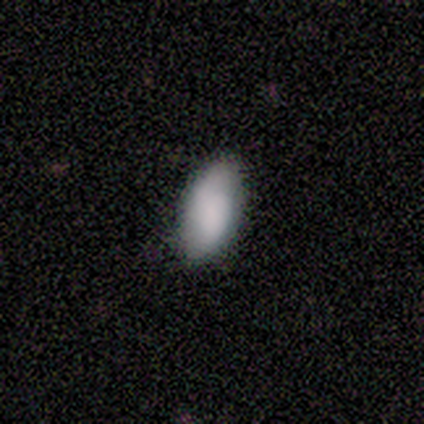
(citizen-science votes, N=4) smooth_or_featured: smooth (p=0.75) [alt: featured or disk p=0.25]
how_rounded: in between (p=0.67) [alt: cigar-shaped p=0.33]
merging: none (p=0.75) [alt: minor disturbance p=0.25]